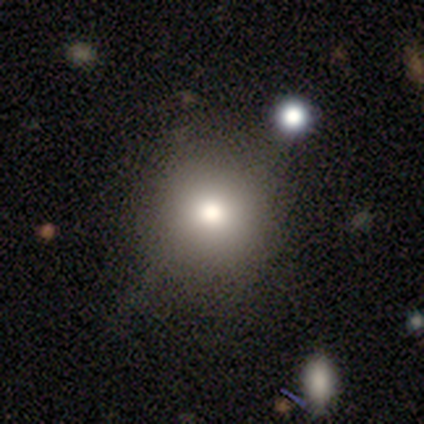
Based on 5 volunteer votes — Morphology: type=smooth (60%); roundness=round (100%); merging=none (80%).